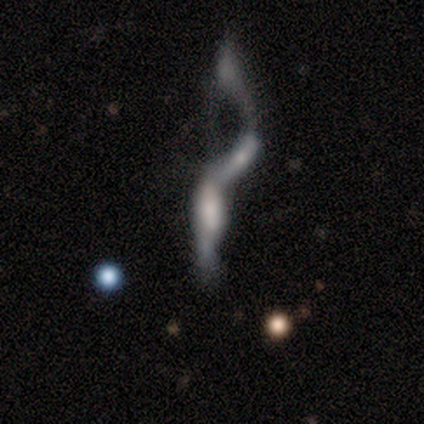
Smooth or featured?
  - smooth: 60% *
  - featured or disk: 40%
  - star or artifact: 0%
How rounded?
  - cigar-shaped: 100% *
  - round: 0%
  - in between: 0%
Merging?
  - merger: 60% *
  - major disturbance: 40%
  - none: 0%
  - minor disturbance: 0%